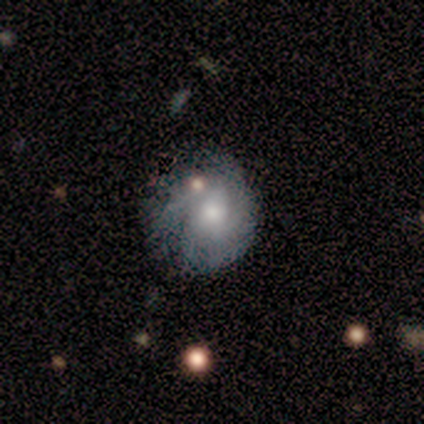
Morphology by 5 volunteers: Smooth or featured? 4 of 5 (80%) said smooth. How rounded? 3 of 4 (75%) said round. Merging? 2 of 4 (50%, tied with minor disturbance) said none.